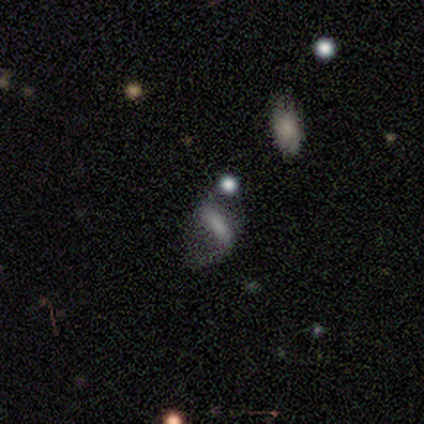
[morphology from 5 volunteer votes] This is likely a smooth galaxy (60%). How rounded: clearly in between (100%). Merging: possibly minor disturbance (50%).